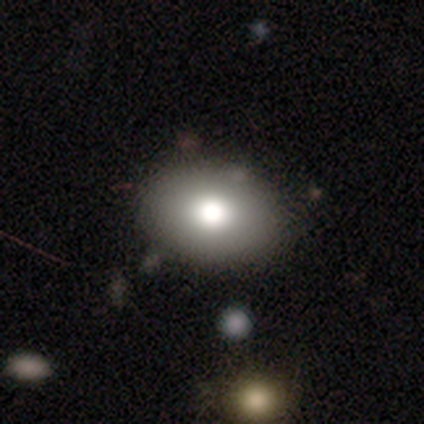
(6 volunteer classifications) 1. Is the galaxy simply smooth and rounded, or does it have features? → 100% smooth, 0% featured or disk, 0% star or artifact.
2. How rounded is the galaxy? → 100% in between, 0% round, 0% cigar-shaped.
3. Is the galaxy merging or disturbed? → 83% none, 17% minor disturbance, 0% major disturbance, 0% merger.